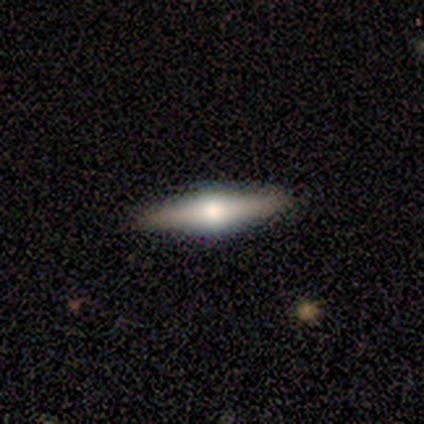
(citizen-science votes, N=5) Smooth or featured? featured or disk (60%)
Edge-on disk? yes (100%)
Edge-on bulge? rounded (100%)
Merging? none (100%)